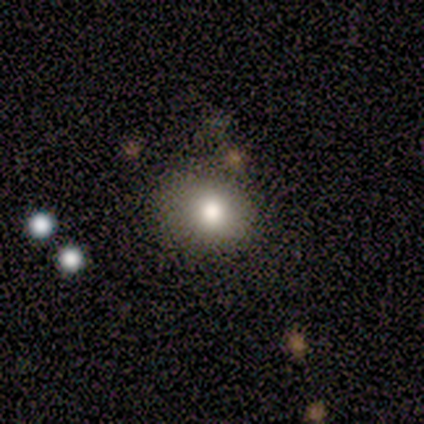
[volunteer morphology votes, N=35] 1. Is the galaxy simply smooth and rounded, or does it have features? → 66% smooth, 20% featured or disk, 14% star or artifact.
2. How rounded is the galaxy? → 65% round, 35% in between, 0% cigar-shaped.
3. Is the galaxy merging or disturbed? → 77% none, 20% minor disturbance, 3% major disturbance, 0% merger.